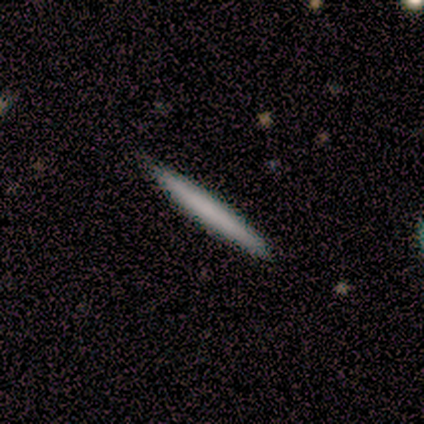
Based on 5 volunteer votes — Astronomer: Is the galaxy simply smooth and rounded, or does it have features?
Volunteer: featured or disk — 60% (runner-up: smooth, 40%).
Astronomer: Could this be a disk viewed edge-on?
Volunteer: yes — 100%.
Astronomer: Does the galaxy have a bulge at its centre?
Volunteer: none — 67%.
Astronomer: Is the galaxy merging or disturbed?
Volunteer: none — 100%.